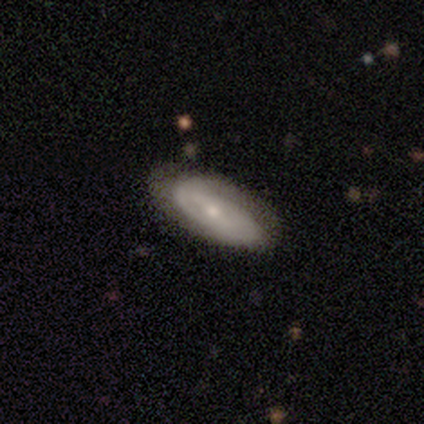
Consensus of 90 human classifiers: Overall: featured or disk (51%; smooth 43%). Edge-on disk: no (78%). Bar: no (53%; weak 36%). Spiral arms: yes (78%). Spiral arm count: can't tell (50%; 2 39%). Spiral winding: tight (64%). Bulge size: small (72%). Merging: none (75%).